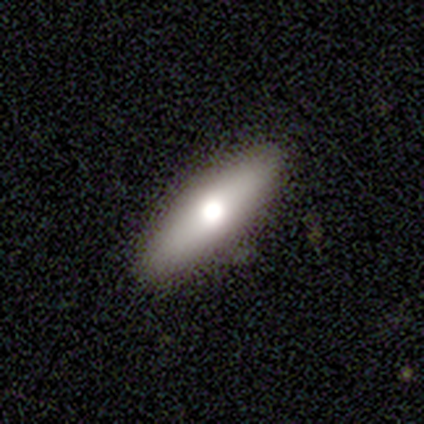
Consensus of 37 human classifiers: smooth 59%, featured or disk 35%, star or artifact 5%. Down the decision tree: how rounded — cigar-shaped (73%); merging — none (91%).